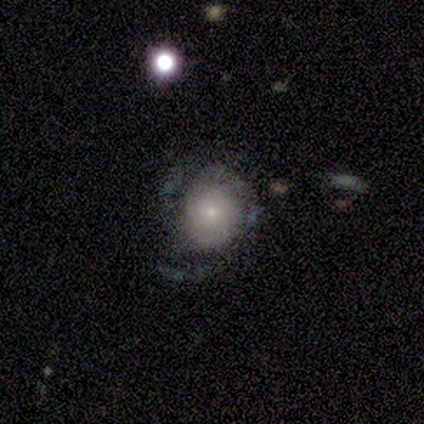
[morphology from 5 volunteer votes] Q: Smooth or featured?
A: featured or disk (60%); runner-up: smooth (20%)
Q: Edge-on disk?
A: no (100%)
Q: Bar?
A: no (100%)
Q: Spiral arms?
A: yes (67%); runner-up: no (33%)
Q: Spiral winding?
A: tight (50%); tied with: medium (50%)
Q: Spiral arm count?
A: 3 (50%); tied with: can't tell (50%)
Q: Bulge size?
A: small (67%); runner-up: moderate (33%)
Q: Merging?
A: major disturbance (75%); runner-up: none (25%)